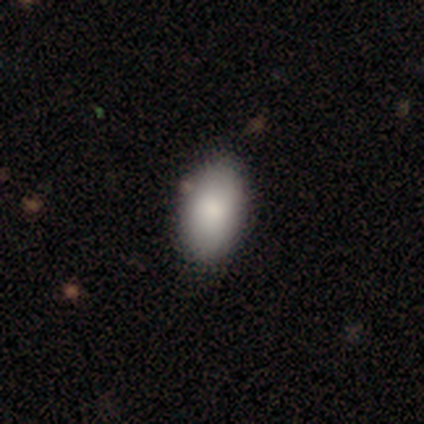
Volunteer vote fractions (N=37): Smooth or featured: smooth — 92% (star or artifact — 5%)
How rounded: in between — 91% (cigar-shaped — 9%)
Merging: none — 77% (minor disturbance — 20%)